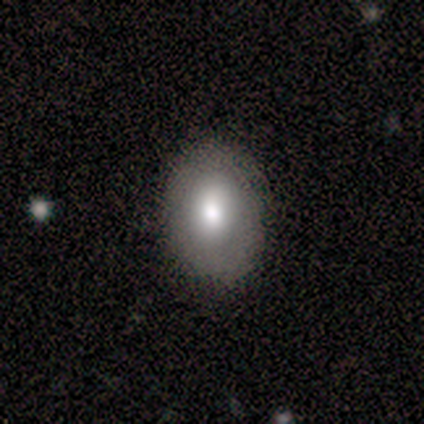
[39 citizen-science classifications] smooth 72%, featured or disk 18%, star or artifact 10%. Down the decision tree: how rounded — in between (71%); merging — none (89%).